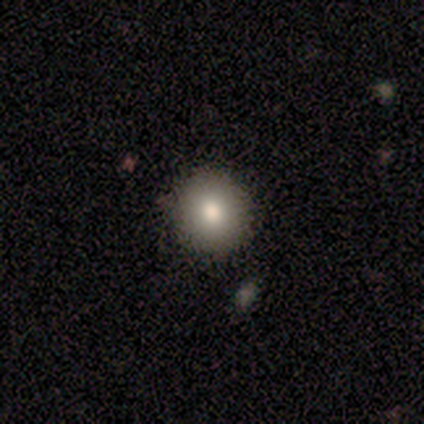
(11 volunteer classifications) This appears to be a smooth galaxy with no disk features (82%) that is round (89%). Merging: none (90%).